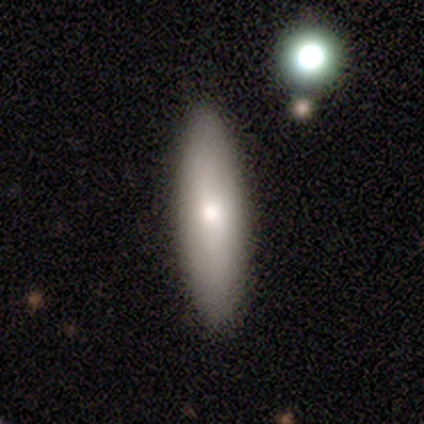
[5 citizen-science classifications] smooth 80%, featured or disk 20%, star or artifact 0%. Down the decision tree: how rounded — cigar-shaped (75%); merging — none (100%).